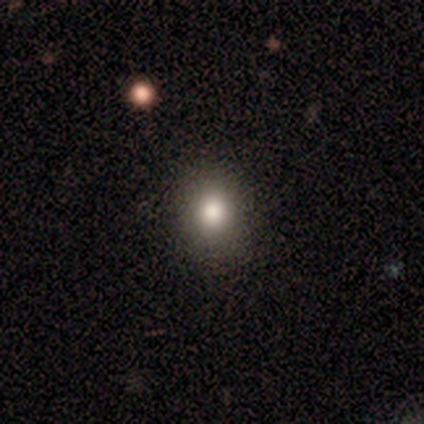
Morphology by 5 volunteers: type=smooth (80%); roundness=round (75%); merging=none (80%).